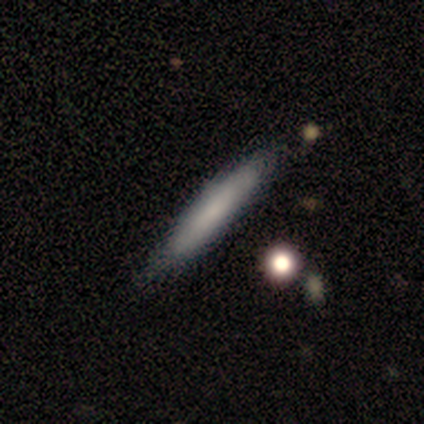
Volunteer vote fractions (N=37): Q: Smooth or featured?
A: smooth (65%); runner-up: featured or disk (32%)
Q: How rounded?
A: cigar-shaped (100%)
Q: Merging?
A: none (61%); runner-up: minor disturbance (14%)